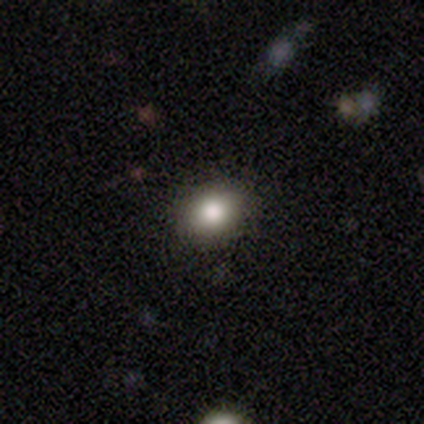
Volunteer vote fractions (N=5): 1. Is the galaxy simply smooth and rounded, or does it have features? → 100% smooth, 0% featured or disk, 0% star or artifact.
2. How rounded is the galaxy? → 60% round, 40% in between, 0% cigar-shaped.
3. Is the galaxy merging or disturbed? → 80% none, 20% minor disturbance, 0% major disturbance, 0% merger.